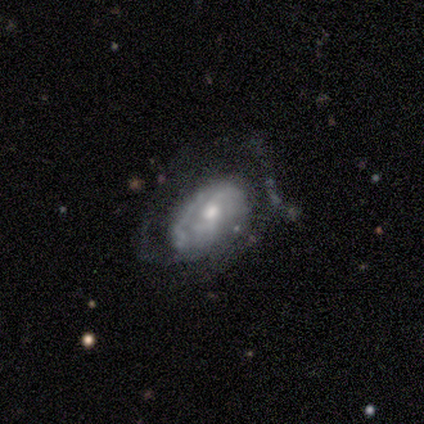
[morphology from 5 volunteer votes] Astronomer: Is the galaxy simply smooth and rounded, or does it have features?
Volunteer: featured or disk — 100%.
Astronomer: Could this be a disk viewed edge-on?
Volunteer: no — 60% (runner-up: yes, 40%).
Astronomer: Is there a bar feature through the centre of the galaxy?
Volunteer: no — 100%.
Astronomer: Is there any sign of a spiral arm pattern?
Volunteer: no — 67%.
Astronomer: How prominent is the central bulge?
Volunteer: large — 33%, tied with moderate and small at 33%.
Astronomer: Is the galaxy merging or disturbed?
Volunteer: major disturbance — 40%, tied with merger at 40%.